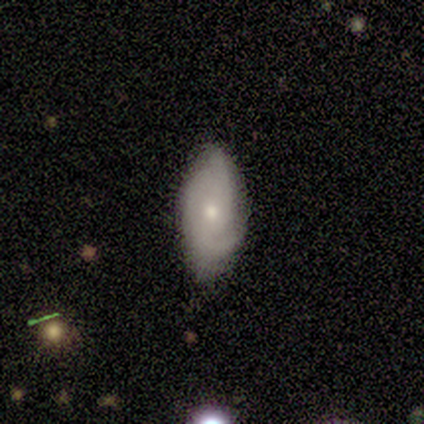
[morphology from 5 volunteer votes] This appears to be a smooth galaxy with no disk features (80%) that is in between round and cigar-shaped (75%). Merging: none (80%).